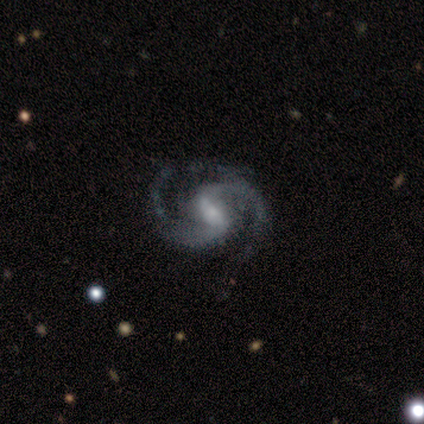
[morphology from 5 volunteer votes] Smooth or featured? 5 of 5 (100%) said featured or disk. Edge-on disk? 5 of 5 (100%) said no. Bar? 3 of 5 (60%) said strong. Spiral arms? 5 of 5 (100%) said yes. Spiral winding? 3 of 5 (60%) said medium. Spiral arm count? 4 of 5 (80%) said 2. Bulge size? 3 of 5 (60%) said moderate. Merging? 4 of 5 (80%) said none.